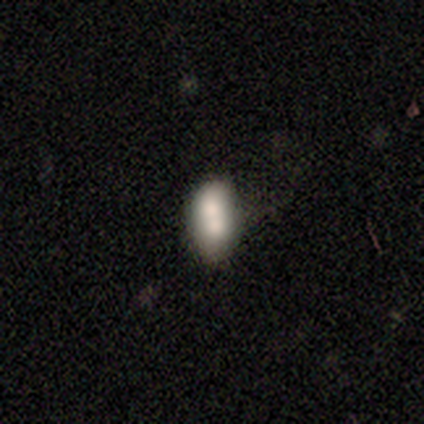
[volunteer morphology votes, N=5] smooth-or-featured: smooth: 60% | featured or disk: 20% | star or artifact: 20%
  how-rounded: in between: 67% | round: 33% | cigar-shaped: 0%
  merging: none: 50% (tied) | merger: 50% (tied) | minor disturbance: 0% | major disturbance: 0%